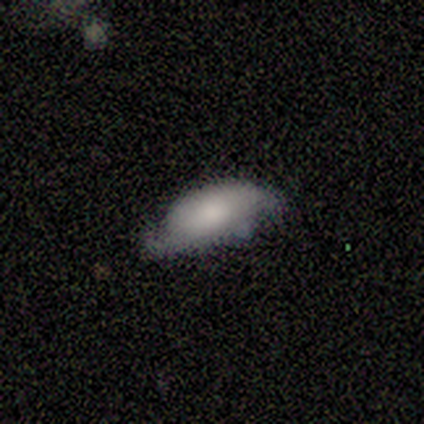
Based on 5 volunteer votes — smooth 60%, featured or disk 40%, star or artifact 0%. Down the decision tree: how rounded — in between (100%); merging — minor disturbance (60%).